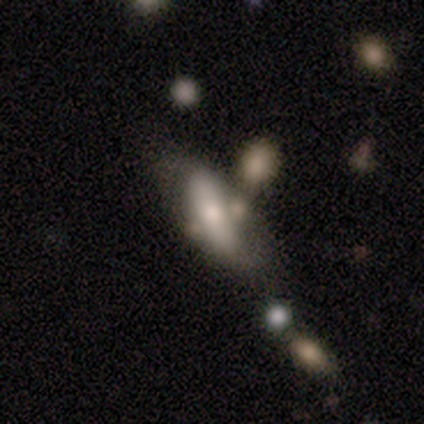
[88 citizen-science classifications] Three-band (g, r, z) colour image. It shows a smooth galaxy with no disk features (52%) that is in between round and cigar-shaped (65%). Merging: none (38%).